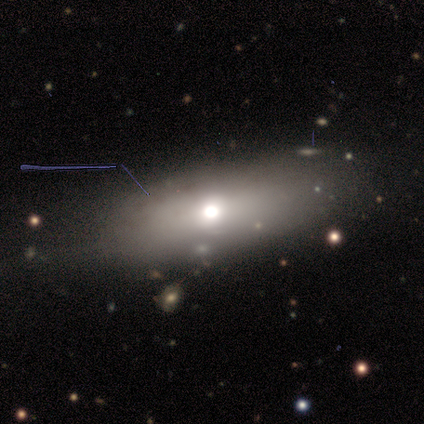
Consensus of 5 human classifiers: smooth-or-featured: smooth: 80% | featured or disk: 20% | star or artifact: 0%
  how-rounded: in between: 75% | cigar-shaped: 25% | round: 0%
  merging: none: 80% | minor disturbance: 20% | major disturbance: 0% | merger: 0%